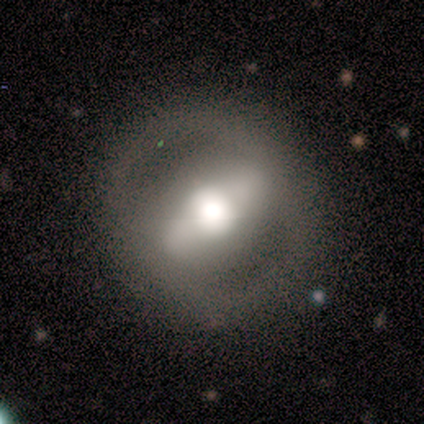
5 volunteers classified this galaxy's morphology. type=featured or disk (60%); edge-on=no (100%); bar=strong (100%); spiral arms=no (67%); bulge=dominant (33%, tied with large and moderate); merging=none (100%).